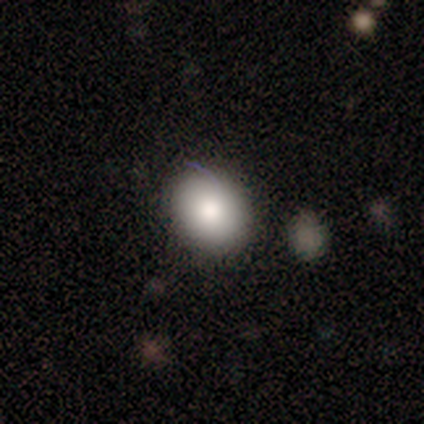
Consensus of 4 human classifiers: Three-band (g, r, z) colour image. It shows a smooth galaxy with no disk features (75%) that is in between round and cigar-shaped (67%). Merging: minor disturbance (67%).